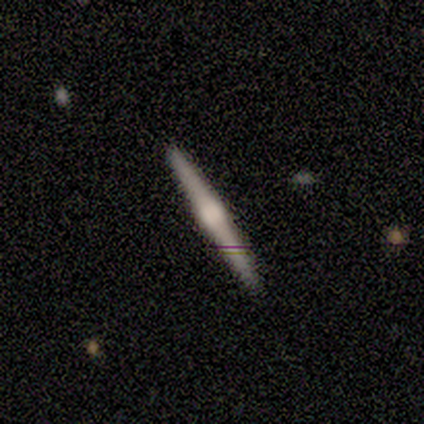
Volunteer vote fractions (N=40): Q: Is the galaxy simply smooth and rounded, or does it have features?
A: featured or disk — 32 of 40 (80%).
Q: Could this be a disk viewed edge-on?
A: yes — 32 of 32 (100%).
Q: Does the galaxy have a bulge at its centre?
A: rounded — 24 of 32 (75%).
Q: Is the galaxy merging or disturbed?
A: none — 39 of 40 (98%).